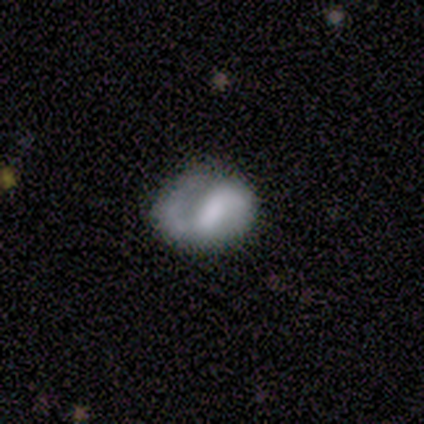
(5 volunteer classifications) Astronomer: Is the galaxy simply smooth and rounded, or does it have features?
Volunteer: featured or disk — 80%.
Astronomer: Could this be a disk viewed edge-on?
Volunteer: no — 100%.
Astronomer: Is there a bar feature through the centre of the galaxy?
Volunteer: weak — 50%, tied with no at 50%.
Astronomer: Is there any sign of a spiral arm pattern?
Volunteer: yes — 75%.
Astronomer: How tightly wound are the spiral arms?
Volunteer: loose — 67%.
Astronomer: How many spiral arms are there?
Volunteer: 2 — 67%.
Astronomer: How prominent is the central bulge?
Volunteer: small — 50%, tied with none at 50%.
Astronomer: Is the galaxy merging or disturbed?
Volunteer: none — 40%, tied with major disturbance at 40%.